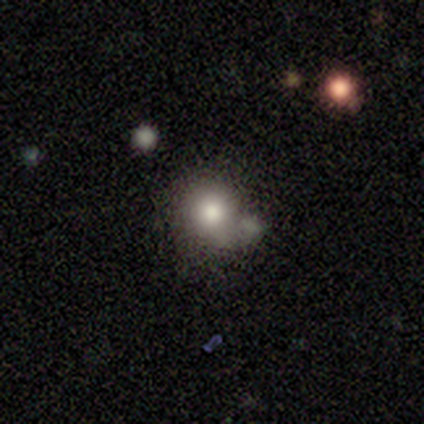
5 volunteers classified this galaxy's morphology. This appears to be a smooth galaxy with no disk features (60%) that is round (67%). Merging: none (40%, tied with major disturbance).